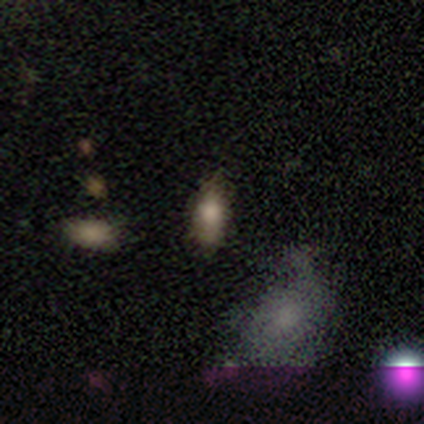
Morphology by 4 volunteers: This is clearly a smooth galaxy (100%). How rounded: clearly in between (100%). Merging: likely none (75%).